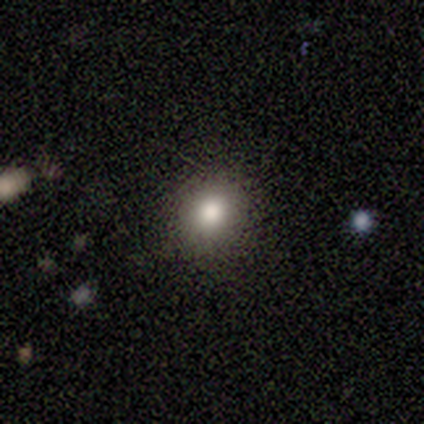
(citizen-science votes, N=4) smooth-or-featured: smooth: 75% | star or artifact: 25% | featured or disk: 0%
  how-rounded: round: 100% | in between: 0% | cigar-shaped: 0%
  merging: none: 100% | minor disturbance: 0% | major disturbance: 0% | merger: 0%